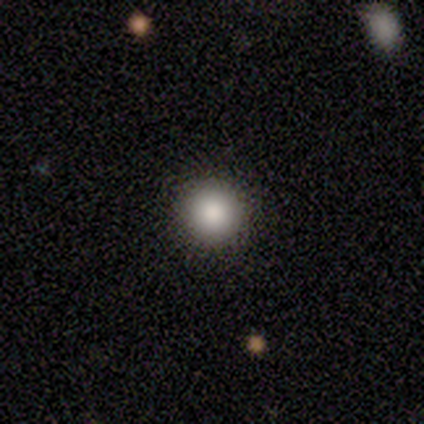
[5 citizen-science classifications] This appears to be a smooth galaxy with no disk features (80%) that is round (100%). Merging: none (80%).